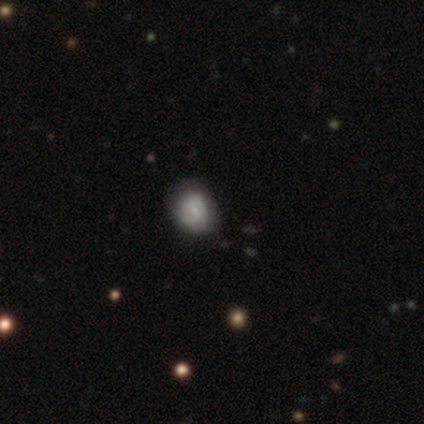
Volunteers were most divided on "bar" (2-way tie): weak: 50%, no: 50%, strong: 0%; "bulge size" (2-way tie): moderate: 50%, small: 50%, dominant: 0%, large: 0%, none: 0%. More confident: edge-on disk — no (100%); spiral arms — yes (100%); spiral winding — tight (100%); smooth or featured — featured or disk (80%); merging — none (80%); spiral arm count — can't tell (50%).